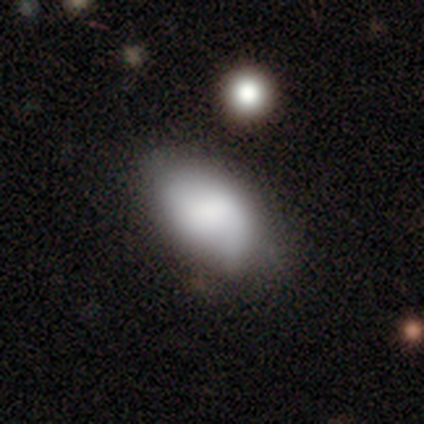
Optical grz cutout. It shows a smooth galaxy with no disk features (78%) that is in between round and cigar-shaped (96%). Merging: none (50%).